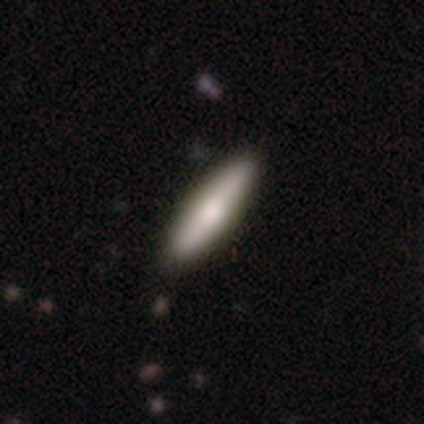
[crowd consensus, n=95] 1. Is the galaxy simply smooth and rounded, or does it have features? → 63% smooth, 27% featured or disk, 9% star or artifact.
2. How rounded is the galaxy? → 85% cigar-shaped, 15% in between, 0% round.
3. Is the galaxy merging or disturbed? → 90% none, 9% minor disturbance, 1% merger, 0% major disturbance.